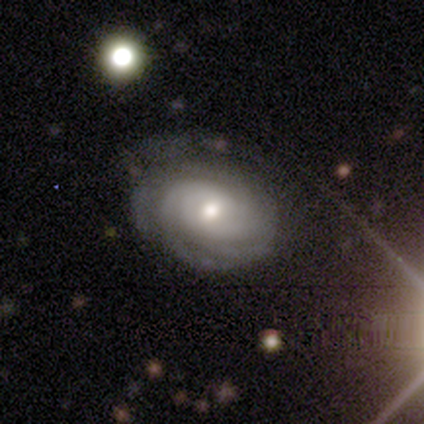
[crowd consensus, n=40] Smooth or featured: featured or disk — 88% (smooth — 8%)
Edge-on disk: no — 94% (yes — 6%)
Bar: no — 64% (weak — 27%)
Spiral arms: yes — 94% (no — 6%)
Spiral winding: tight — 68% (medium — 26%)
Spiral arm count: can't tell — 42% (2 — 19%)
Bulge size: moderate — 58% (small — 27%)
Merging: none — 63% (minor disturbance — 18%)